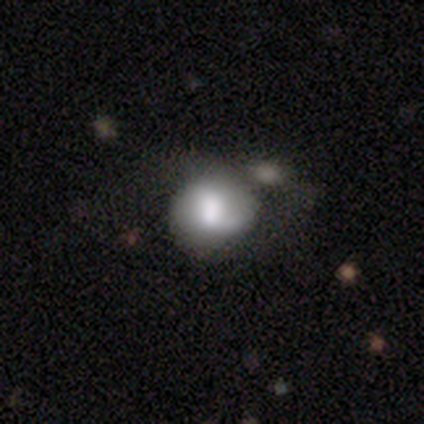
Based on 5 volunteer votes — Smooth or featured?
  - smooth: 60% *
  - featured or disk: 40%
  - star or artifact: 0%
How rounded?
  - round: 67% *
  - in between: 33%
  - cigar-shaped: 0%
Merging?
  - minor disturbance: 40% *
  - none: 20%
  - major disturbance: 20%
  - merger: 20%